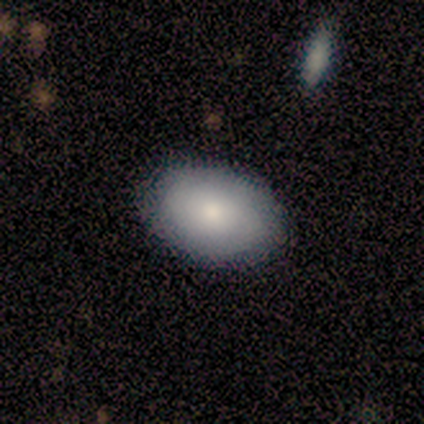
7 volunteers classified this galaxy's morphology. A smooth galaxy with no disk features (71%) that is in between round and cigar-shaped (80%). Merging: none (86%).